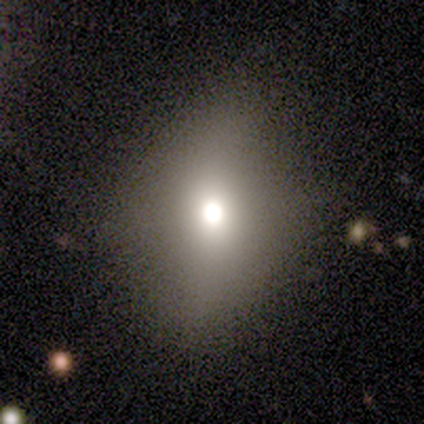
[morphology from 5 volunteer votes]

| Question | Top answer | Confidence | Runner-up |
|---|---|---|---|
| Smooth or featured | smooth | 60% | featured or disk (20%) |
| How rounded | round | 100% | — |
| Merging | none | 100% | — |